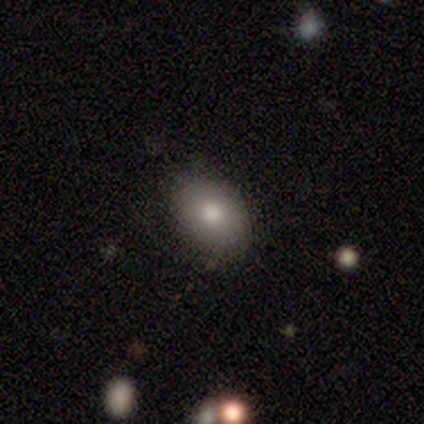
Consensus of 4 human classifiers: smooth_or_featured: smooth (p=0.50) [tied with: featured or disk p=0.50]
how_rounded: in between (p=1.00)
merging: none (p=0.75) [alt: minor disturbance p=0.25]